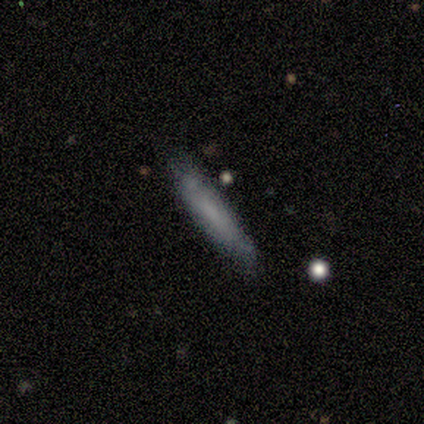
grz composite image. It shows a smooth galaxy with no disk features (57%) that is cigar-shaped (100%). Merging: none (86%).